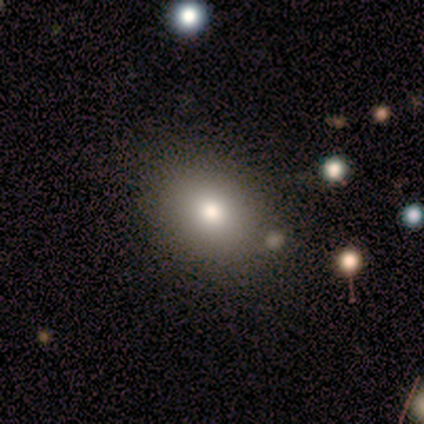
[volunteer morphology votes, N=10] This is likely a smooth galaxy (70%). How rounded: possibly in between (57%). Merging: clearly none (89%).